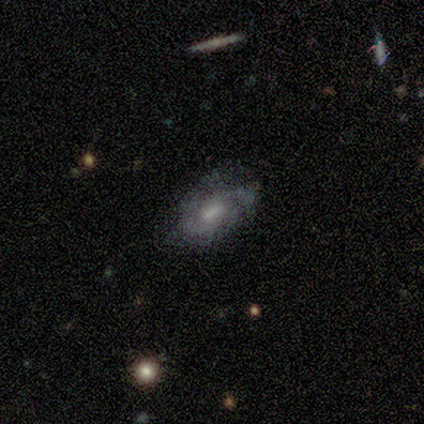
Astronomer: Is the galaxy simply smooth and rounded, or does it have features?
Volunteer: featured or disk — 60%.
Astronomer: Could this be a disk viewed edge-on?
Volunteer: no — 100%.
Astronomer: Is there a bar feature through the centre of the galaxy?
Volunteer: no — 67%.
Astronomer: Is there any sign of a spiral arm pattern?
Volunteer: yes — 67%.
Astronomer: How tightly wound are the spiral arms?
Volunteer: tight — 100%.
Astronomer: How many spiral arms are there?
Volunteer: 3 — 50%, tied with can't tell at 50%.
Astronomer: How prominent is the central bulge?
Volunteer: large — 33%, tied with small and none at 33%.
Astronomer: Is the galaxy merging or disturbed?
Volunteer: none — 50%.